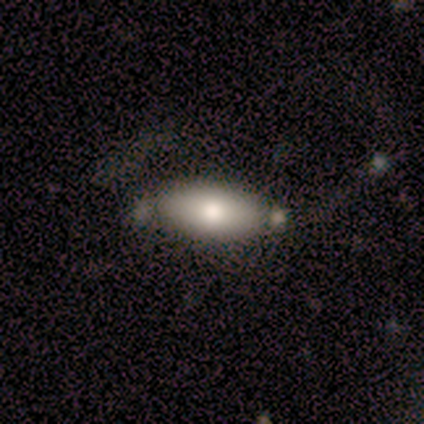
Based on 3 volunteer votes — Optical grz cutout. It shows a smooth galaxy with no disk features (100%) that is in between round and cigar-shaped (100%). Merging: none (33%, tied with minor disturbance and major disturbance).